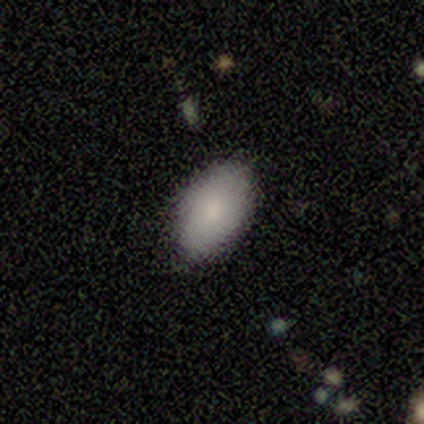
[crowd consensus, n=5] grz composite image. It shows a smooth galaxy with no disk features (80%) that is in between round and cigar-shaped (100%). Merging: none (80%).